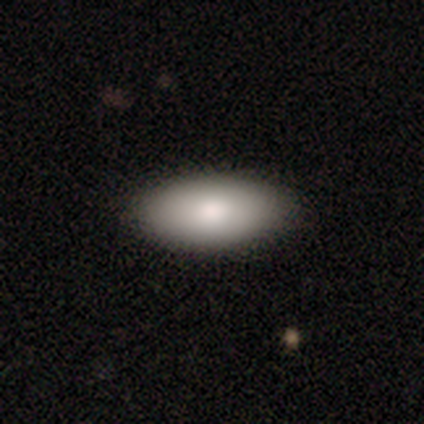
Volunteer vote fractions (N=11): Q: Smooth or featured?
A: smooth (73%); runner-up: featured or disk (18%)
Q: How rounded?
A: in between (100%)
Q: Merging?
A: none (100%)